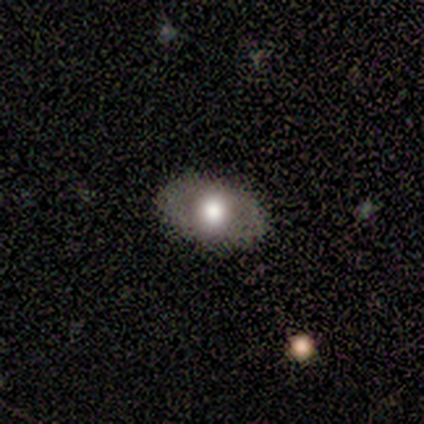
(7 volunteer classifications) Smooth or featured: featured or disk — 43% (smooth — 29%)
Edge-on disk: no — 100%
Bar: no — 100%
Spiral arms: no — 67% (yes — 33%)
Bulge size: large — 67% (moderate — 33%)
Merging: none — 100%